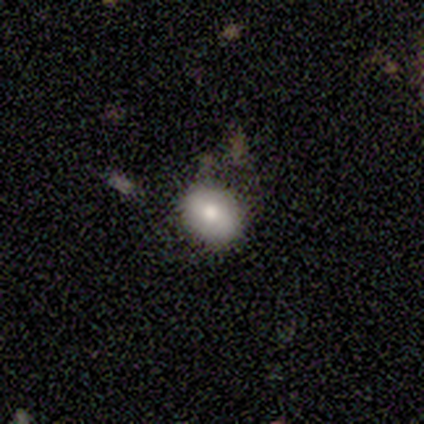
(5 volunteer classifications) Morphology: type=smooth (60%); roundness=in between (67%); merging=minor disturbance (75%).